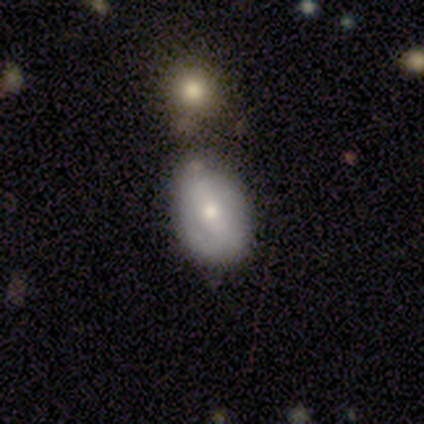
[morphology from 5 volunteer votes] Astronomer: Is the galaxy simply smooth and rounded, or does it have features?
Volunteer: featured or disk — 60% (runner-up: smooth, 40%).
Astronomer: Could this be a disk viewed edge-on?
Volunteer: no — 67%.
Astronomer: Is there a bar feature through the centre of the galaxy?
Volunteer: weak — 100%.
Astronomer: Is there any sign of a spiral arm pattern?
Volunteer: yes — 100%.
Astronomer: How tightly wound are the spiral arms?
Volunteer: tight — 100%.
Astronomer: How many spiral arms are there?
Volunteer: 1 — 50%, tied with 2 at 50%.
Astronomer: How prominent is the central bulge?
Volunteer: moderate — 100%.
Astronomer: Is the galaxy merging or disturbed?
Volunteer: none — 60%.